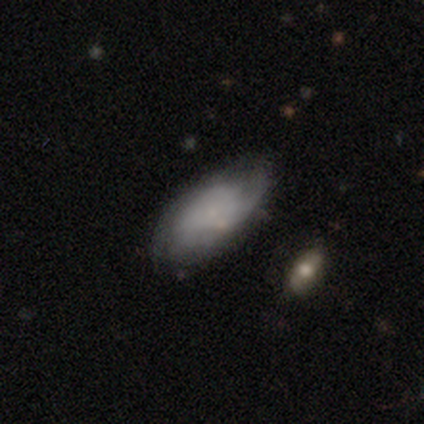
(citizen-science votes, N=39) Volunteers were most divided on "smooth or featured": smooth: 49%, featured or disk: 36%, star or artifact: 15%. More confident: how rounded — in between (95%); merging — none (58%).